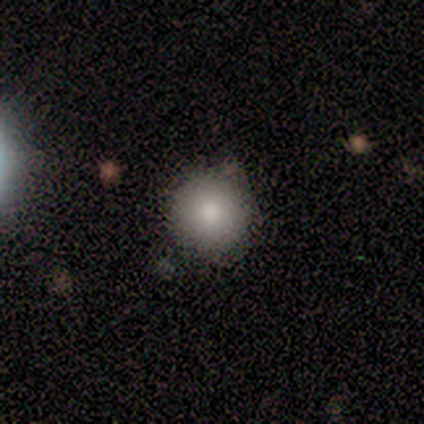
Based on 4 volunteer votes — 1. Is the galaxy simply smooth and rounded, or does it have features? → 100% smooth, 0% featured or disk, 0% star or artifact.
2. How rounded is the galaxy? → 100% round, 0% in between, 0% cigar-shaped.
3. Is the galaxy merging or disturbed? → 50% none, 25% minor disturbance, 25% merger, 0% major disturbance.